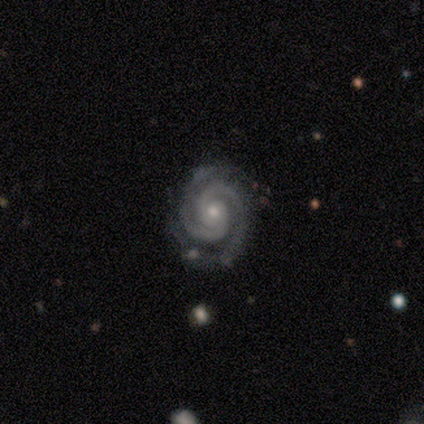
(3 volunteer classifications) This appears to be a featured or disk galaxy (100%) with no bar (67%), 2 (67%) tight (100%) spiral arms (100%) and a moderate central bulge (67%). Merging: none (100%).